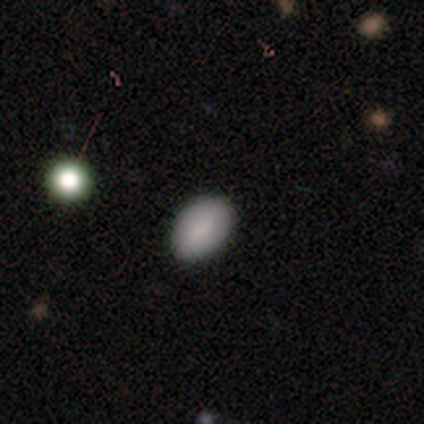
Volunteers were most divided on "merging": none: 67%, major disturbance: 33%, minor disturbance: 0%, merger: 0%. More confident: smooth or featured — smooth (100%); how rounded — in between (100%).